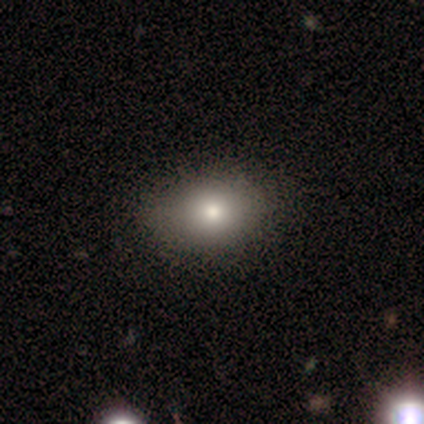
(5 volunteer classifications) smooth_or_featured: smooth (p=0.80) [alt: featured or disk p=0.20]
how_rounded: in between (p=0.75) [alt: round p=0.25]
merging: none (p=0.60) [alt: minor disturbance p=0.40]